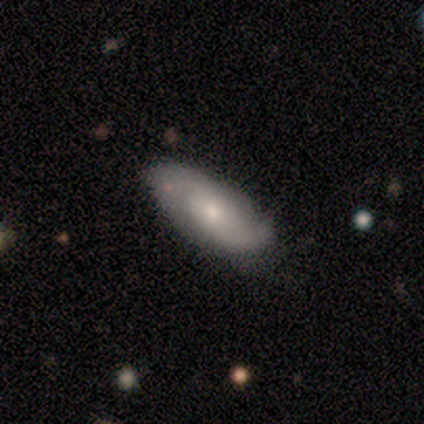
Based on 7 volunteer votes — A featured or disk galaxy (71%) with no bar (60%), 2 (100%) medium (75%) spiral arms (80%) and a small central bulge (80%). Merging: none (86%).